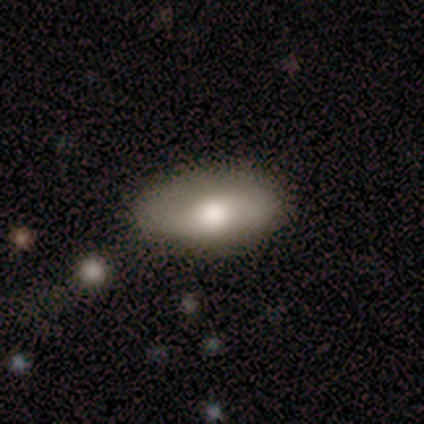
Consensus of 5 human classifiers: smooth_or_featured: smooth (p=0.80) [alt: featured or disk p=0.20]
how_rounded: in between (p=1.00)
merging: none (p=0.60) [alt: minor disturbance p=0.40]